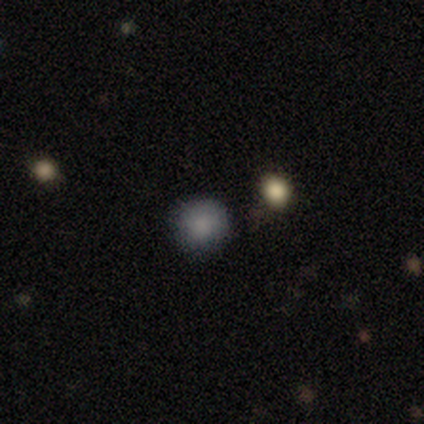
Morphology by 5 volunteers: Smooth or featured: smooth — 80% (star or artifact — 20%)
How rounded: round — 100%
Merging: none — 100%